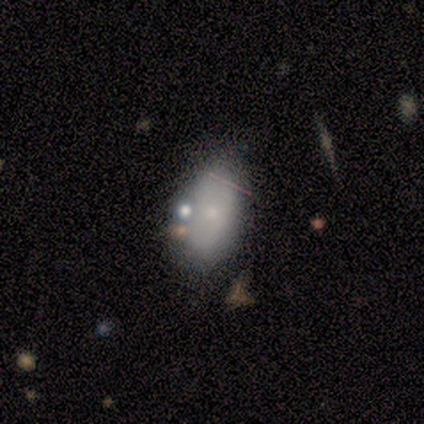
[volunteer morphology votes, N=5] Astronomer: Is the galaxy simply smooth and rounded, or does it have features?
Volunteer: smooth — 80%.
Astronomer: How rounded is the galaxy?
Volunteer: in between — 100%.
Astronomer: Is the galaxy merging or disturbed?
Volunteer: none — 75%.